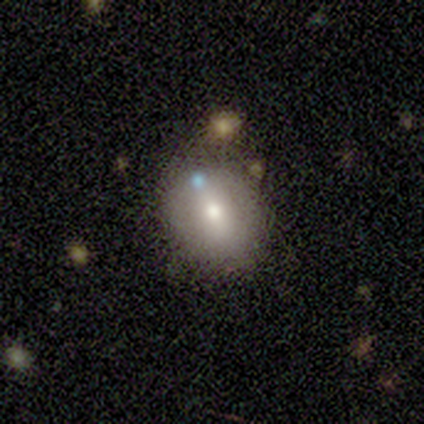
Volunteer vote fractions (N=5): A smooth galaxy with no disk features (40%, tied with featured or disk) that is round (50%, tied with in between). Merging: none (50%, tied with minor disturbance).